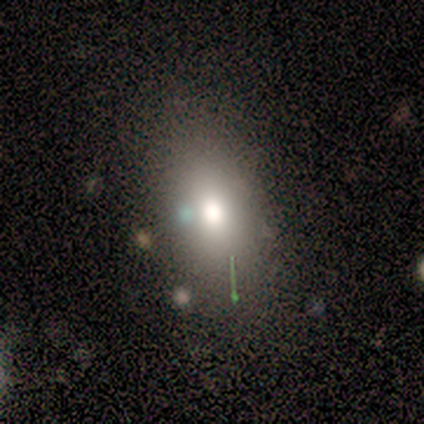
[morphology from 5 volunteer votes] Q: Smooth or featured?
A: smooth (100%)
Q: How rounded?
A: in between (80%); runner-up: round (20%)
Q: Merging?
A: none (80%); runner-up: minor disturbance (20%)